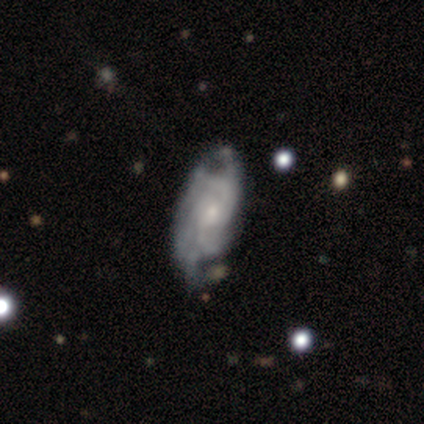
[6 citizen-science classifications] Overall: featured or disk (100%). Edge-on disk: no (83%). Bar: no (100%). Spiral arms: yes (60%; no 40%). Spiral arm count: can't tell (67%; more than 4 33%). Spiral winding: medium (67%; tight 33%). Bulge size: small (60%; moderate 40%). Merging: none (50%, tied with minor disturbance).